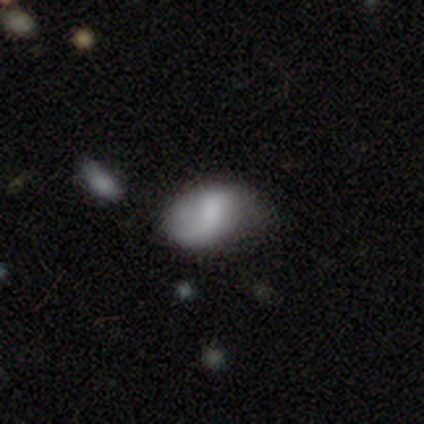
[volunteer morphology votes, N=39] type=smooth (49%); roundness=in between (95%); merging=none (50%).